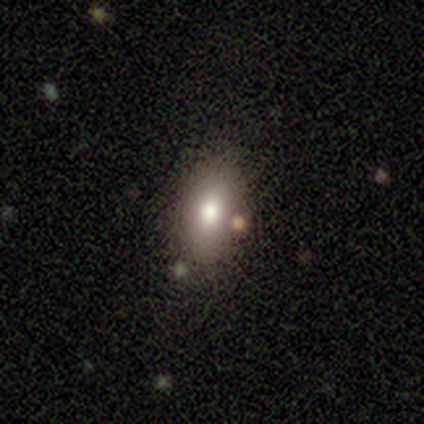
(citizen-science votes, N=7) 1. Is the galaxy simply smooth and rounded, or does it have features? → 43% smooth (tied), 43% star or artifact (tied), 14% featured or disk.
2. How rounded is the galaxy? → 100% in between, 0% round, 0% cigar-shaped.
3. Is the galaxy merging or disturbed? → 50% none (tied), 50% minor disturbance (tied), 0% major disturbance, 0% merger.